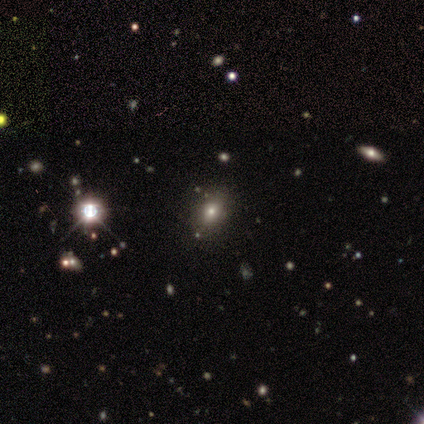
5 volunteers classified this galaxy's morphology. Q: Smooth or featured?
A: smooth (60%); runner-up: featured or disk (20%)
Q: How rounded?
A: in between (67%); runner-up: round (33%)
Q: Merging?
A: none (75%); runner-up: minor disturbance (25%)